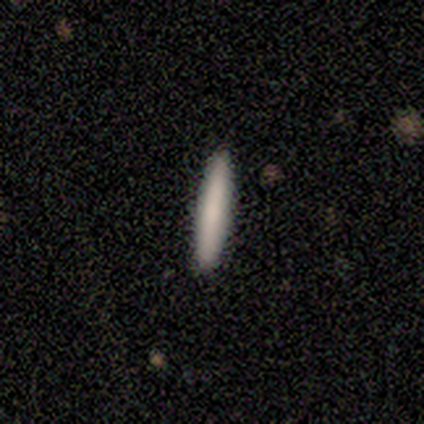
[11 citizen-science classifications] Q: Smooth or featured?
A: smooth (82%); runner-up: star or artifact (18%)
Q: How rounded?
A: cigar-shaped (100%)
Q: Merging?
A: none (78%); runner-up: minor disturbance (11%)